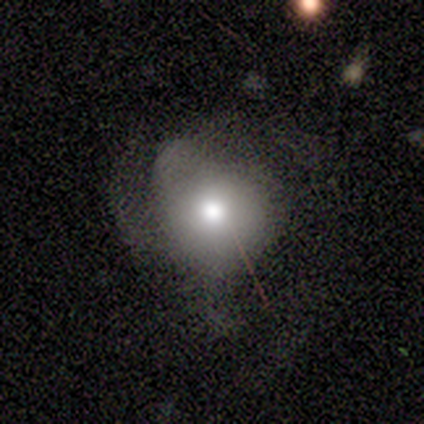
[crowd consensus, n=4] Q: Smooth or featured?
A: smooth (75%); runner-up: star or artifact (25%)
Q: How rounded?
A: round (100%)
Q: Merging?
A: none (100%)